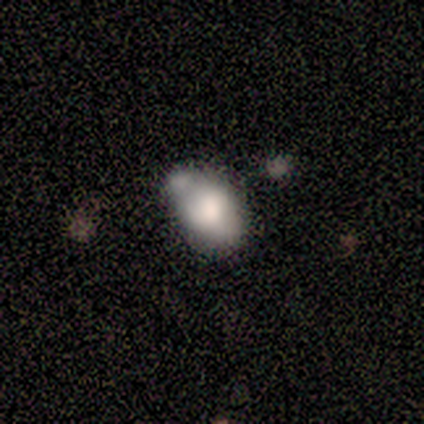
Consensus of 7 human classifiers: Smooth or featured?
  - smooth: 57% *
  - featured or disk: 43%
  - star or artifact: 0%
How rounded?
  - in between: 100% *
  - round: 0%
  - cigar-shaped: 0%
Merging?
  - none: 57% *
  - merger: 29%
  - minor disturbance: 14%
  - major disturbance: 0%